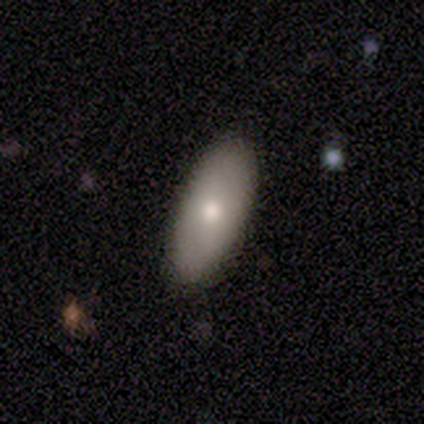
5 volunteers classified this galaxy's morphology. A smooth galaxy with no disk features (80%) that is in between round and cigar-shaped (100%). Merging: none (80%).